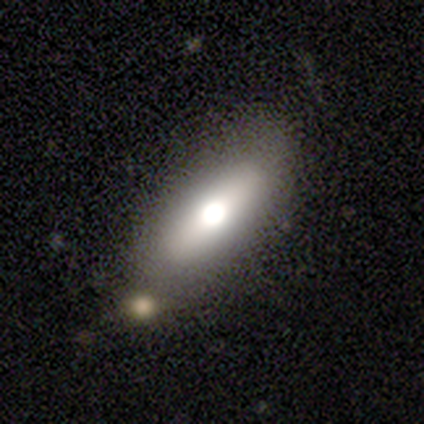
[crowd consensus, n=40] This is possibly a smooth galaxy (57%). How rounded: possibly in between (57%). Merging: likely none (78%).